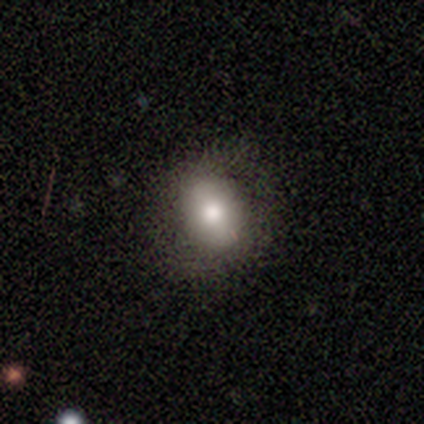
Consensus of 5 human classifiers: Q: Smooth or featured?
A: smooth (80%); runner-up: star or artifact (20%)
Q: How rounded?
A: in between (100%)
Q: Merging?
A: none (75%); runner-up: minor disturbance (25%)